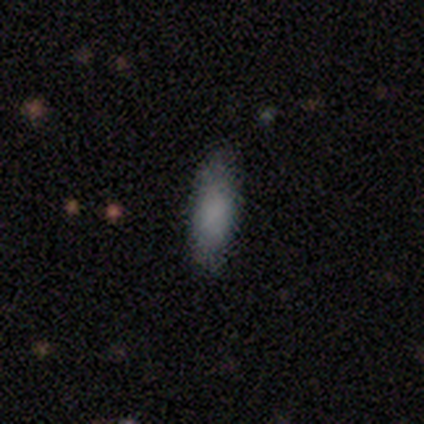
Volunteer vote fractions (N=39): A smooth galaxy with no disk features (87%) that is in between round and cigar-shaped (56%). Merging: none (73%).